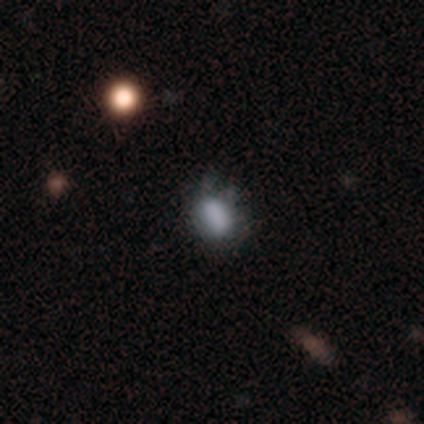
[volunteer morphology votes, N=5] Overall: smooth (40%, tied with featured or disk). How rounded: round (50%, tied with in between). Merging: minor disturbance (75%).